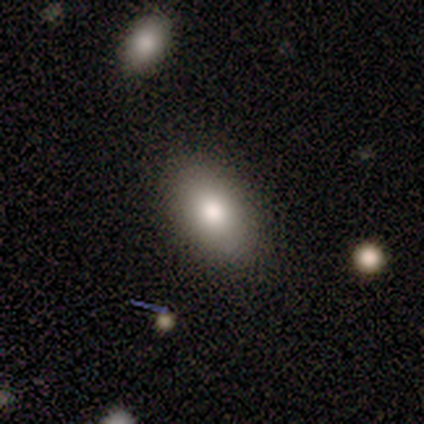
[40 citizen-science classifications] A smooth galaxy with no disk features (75%) that is in between round and cigar-shaped (77%). Merging: none (94%).